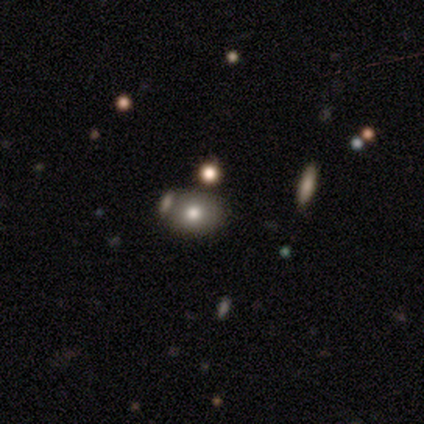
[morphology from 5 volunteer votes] Smooth or featured?
  - smooth: 80% *
  - star or artifact: 20%
  - featured or disk: 0%
How rounded?
  - in between: 75% *
  - round: 25%
  - cigar-shaped: 0%
Merging?
  - none: 75% *
  - merger: 25%
  - minor disturbance: 0%
  - major disturbance: 0%